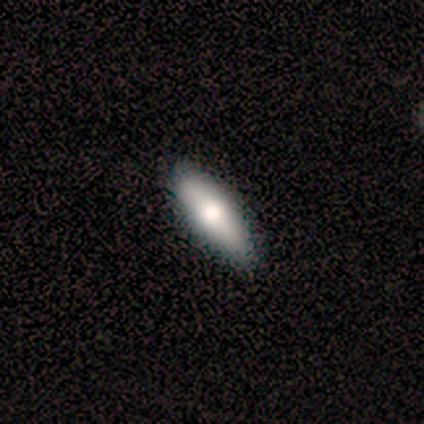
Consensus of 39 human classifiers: This is likely a smooth galaxy (79%). How rounded: likely in between (61%). Merging: possibly none (59%).